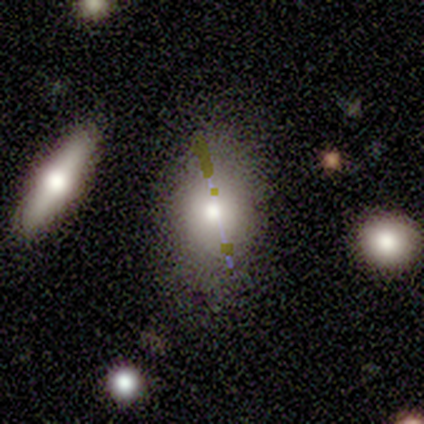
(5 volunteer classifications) smooth 60%, featured or disk 20%, star or artifact 20%. Down the decision tree: how rounded — in between (100%); merging — none (50%, tied with minor disturbance).